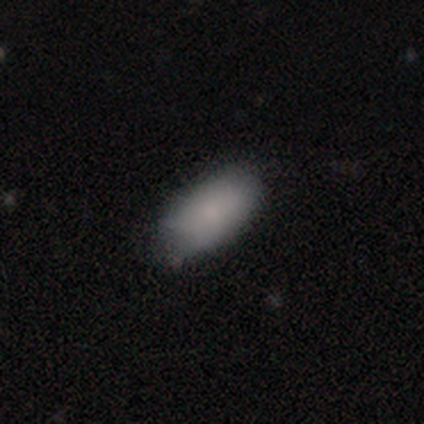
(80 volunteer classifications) Volunteers were most divided on "merging": none: 39%, minor disturbance: 8%, merger: 6%, major disturbance: 1%. More confident: how rounded — in between (96%); smooth or featured — smooth (88%).